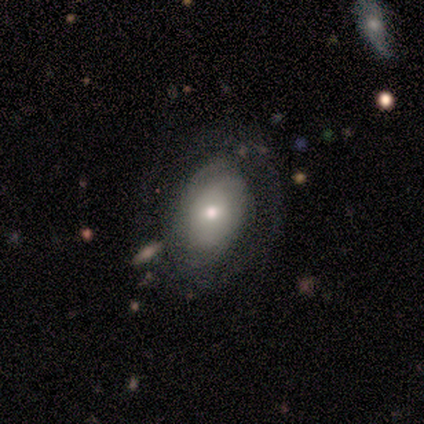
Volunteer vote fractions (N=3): Smooth or featured? smooth (67%)
How rounded? in between (100%)
Merging? none (33%, tied with minor disturbance and major disturbance)